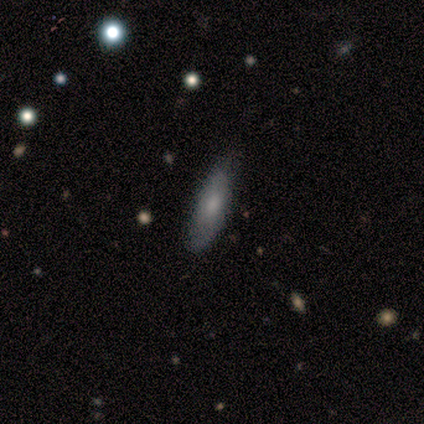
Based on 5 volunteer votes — smooth 80%, featured or disk 20%, star or artifact 0%. Down the decision tree: how rounded — cigar-shaped (100%); merging — minor disturbance (60%).